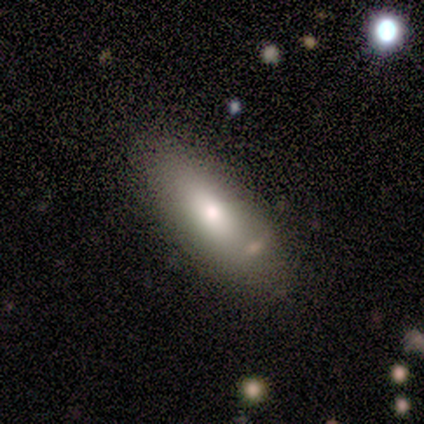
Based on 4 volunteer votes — Smooth or featured? smooth (50%, tied with star or artifact)
How rounded? in between (100%)
Merging? none (100%)